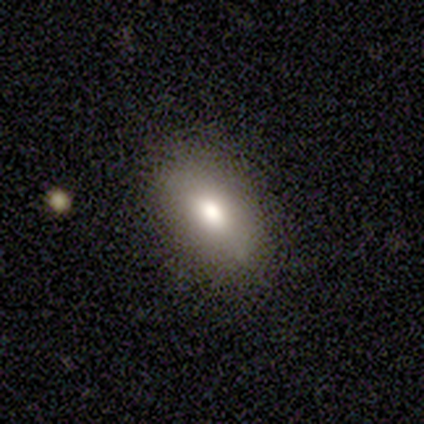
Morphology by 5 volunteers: Q: Smooth or featured?
A: smooth (100%)
Q: How rounded?
A: in between (100%)
Q: Merging?
A: none (80%); runner-up: minor disturbance (20%)